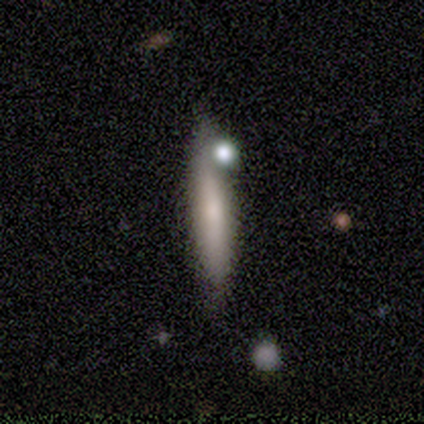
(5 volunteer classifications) featured or disk 60%, smooth 40%, star or artifact 0%. Down the decision tree: edge-on disk — yes (100%); edge-on bulge — rounded (100%); merging — none (40%, tied with minor disturbance).